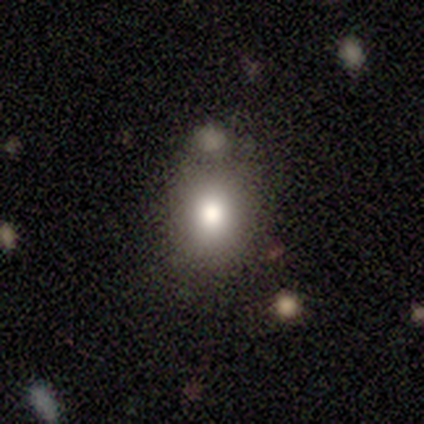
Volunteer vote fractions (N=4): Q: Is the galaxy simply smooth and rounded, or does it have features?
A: smooth — 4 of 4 (100%).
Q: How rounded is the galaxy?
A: round — 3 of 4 (75%).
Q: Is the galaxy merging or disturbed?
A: none — 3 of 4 (75%).